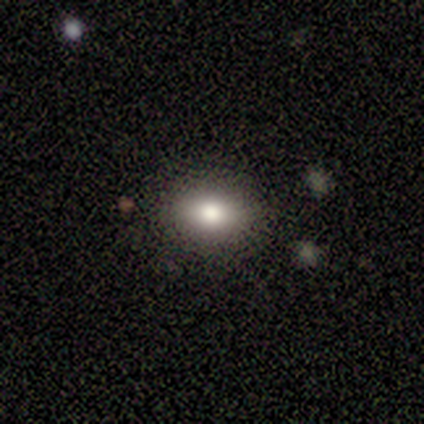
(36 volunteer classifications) A smooth galaxy with no disk features (67%) that is in between round and cigar-shaped (62%).

Vote fractions:
- Smooth or featured? smooth: 67% / featured or disk: 19% / star or artifact: 14%
- How rounded? in between: 62% / round: 33% / cigar-shaped: 4%
- Merging? none: 81% / minor disturbance: 10% / merger: 6% / major disturbance: 3%